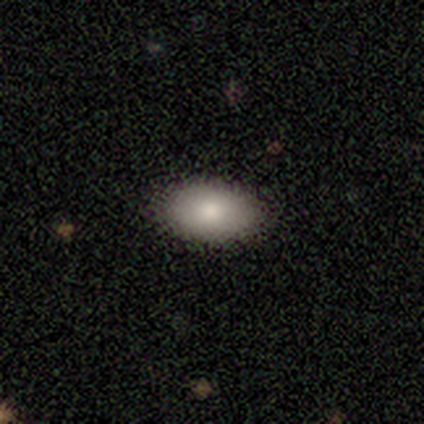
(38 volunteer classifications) Overall: smooth (87%). How rounded: in between (97%). Merging: none (92%).